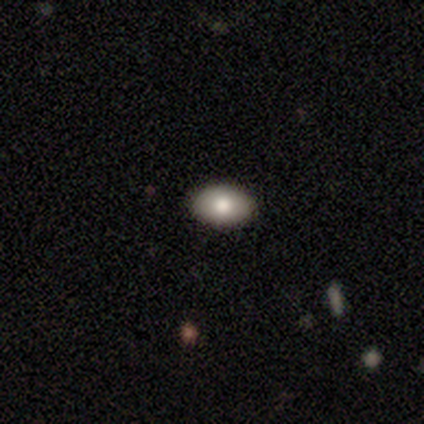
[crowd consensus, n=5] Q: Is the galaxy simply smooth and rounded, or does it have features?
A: smooth — 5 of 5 (100%).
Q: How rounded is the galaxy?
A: in between — 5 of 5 (100%).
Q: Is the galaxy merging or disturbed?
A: none — 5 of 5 (100%).